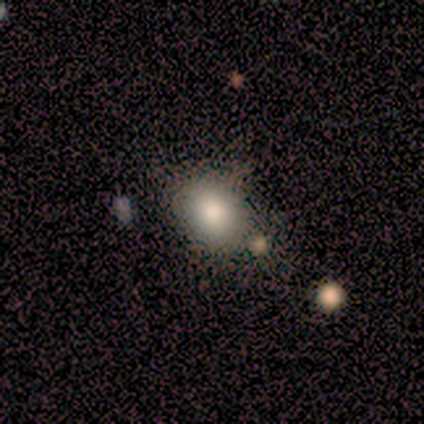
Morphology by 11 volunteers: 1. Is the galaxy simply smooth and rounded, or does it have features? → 73% smooth, 18% featured or disk, 9% star or artifact.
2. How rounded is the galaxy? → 75% in between, 25% round, 0% cigar-shaped.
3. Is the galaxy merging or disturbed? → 60% none, 40% minor disturbance, 0% major disturbance, 0% merger.